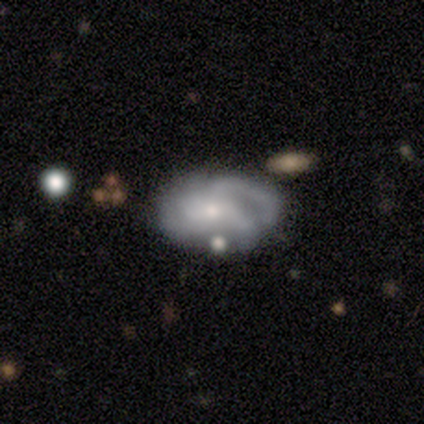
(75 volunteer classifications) Smooth or featured? 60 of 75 (80%) said featured or disk. Edge-on disk? 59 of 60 (98%) said no. Bar? 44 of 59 (75%) said no. Spiral arms? 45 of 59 (76%) said yes. Spiral winding? 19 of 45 (42%) said tight. Spiral arm count? 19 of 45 (42%) said 3. Bulge size? 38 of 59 (64%) said small. Merging? 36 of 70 (51%) said none.